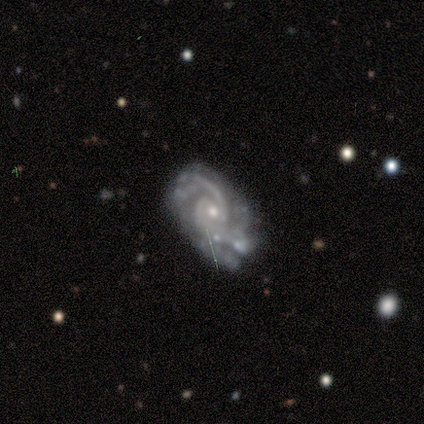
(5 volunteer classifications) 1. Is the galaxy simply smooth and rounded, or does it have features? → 100% featured or disk, 0% smooth, 0% star or artifact.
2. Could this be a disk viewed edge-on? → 100% no, 0% yes.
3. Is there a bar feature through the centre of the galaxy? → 60% weak, 40% no, 0% strong.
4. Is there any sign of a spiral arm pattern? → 100% yes, 0% no.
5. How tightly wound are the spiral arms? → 80% medium, 20% tight, 0% loose.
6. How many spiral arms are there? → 60% 2, 20% 4, 20% can't tell, 0% 1, 0% 3, 0% more than 4.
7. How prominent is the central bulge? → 60% small, 40% moderate, 0% dominant, 0% large, 0% none.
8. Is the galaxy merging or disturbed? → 60% none, 20% minor disturbance, 20% merger, 0% major disturbance.